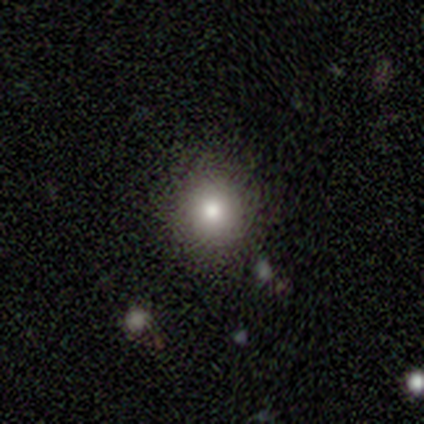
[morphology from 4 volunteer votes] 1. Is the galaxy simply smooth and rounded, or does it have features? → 100% smooth, 0% featured or disk, 0% star or artifact.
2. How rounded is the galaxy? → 100% round, 0% in between, 0% cigar-shaped.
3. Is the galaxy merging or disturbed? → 75% none, 25% major disturbance, 0% minor disturbance, 0% merger.